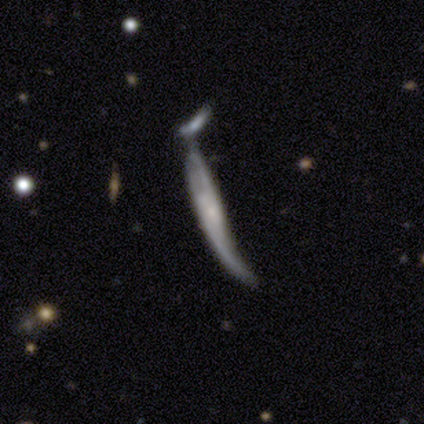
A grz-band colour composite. It shows a smooth galaxy with no disk features (46%, tied with featured or disk) that is cigar-shaped (100%). Merging: merger (47%).